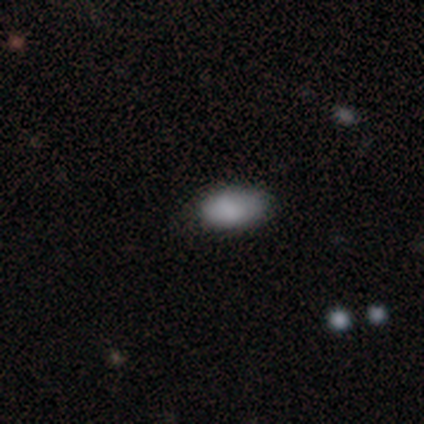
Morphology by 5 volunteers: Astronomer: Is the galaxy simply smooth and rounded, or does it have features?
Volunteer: smooth — 100%.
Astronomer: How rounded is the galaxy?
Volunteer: in between — 100%.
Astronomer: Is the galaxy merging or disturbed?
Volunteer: none — 60% (runner-up: minor disturbance, 40%).